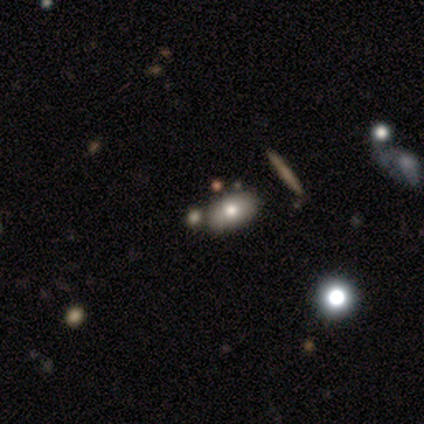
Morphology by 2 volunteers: Volunteers were most divided on "smooth or featured" (2-way tie): smooth: 50%, star or artifact: 50%, featured or disk: 0%. More confident: how rounded — in between (100%); merging — merger (100%).